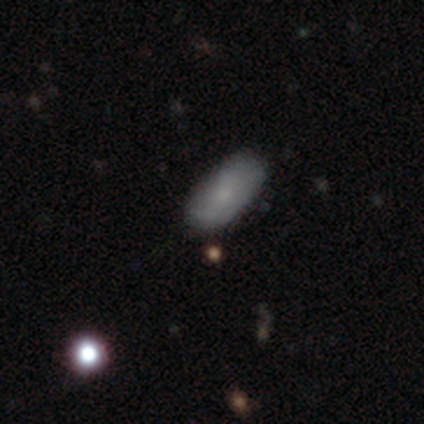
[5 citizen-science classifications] Overall: smooth (80%). How rounded: in between (75%). Merging: none (80%).